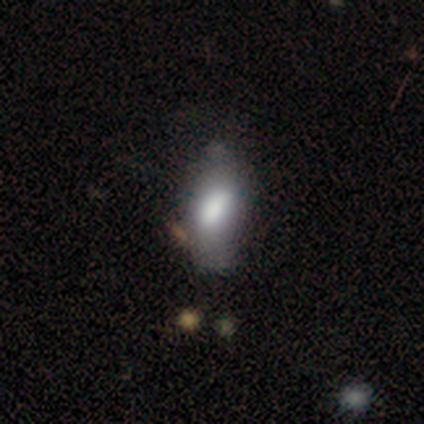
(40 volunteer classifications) Smooth or featured? 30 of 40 (75%) said smooth. How rounded? 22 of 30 (73%) said in between. Merging? 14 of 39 (36%) said none.